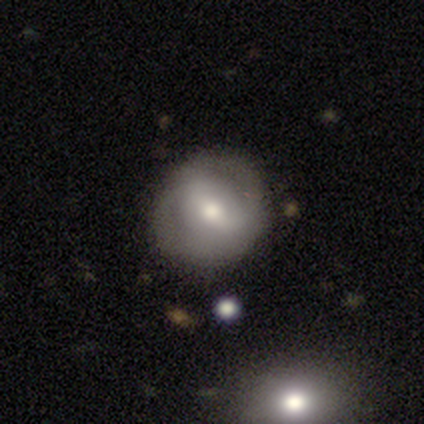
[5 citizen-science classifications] smooth-or-featured: smooth: 40% (tied) | featured or disk: 40% (tied) | star or artifact: 20%
  how-rounded: round: 50% (tied) | in between: 50% (tied) | cigar-shaped: 0%
  merging: none: 100% | minor disturbance: 0% | major disturbance: 0% | merger: 0%